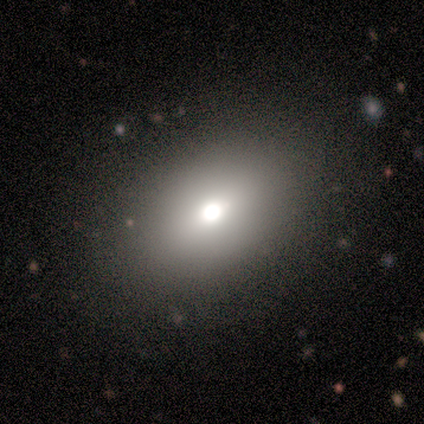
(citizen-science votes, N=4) Volunteers were most divided on "smooth or featured": smooth: 75%, star or artifact: 25%, featured or disk: 0%. More confident: how rounded — in between (100%); merging — none (100%).